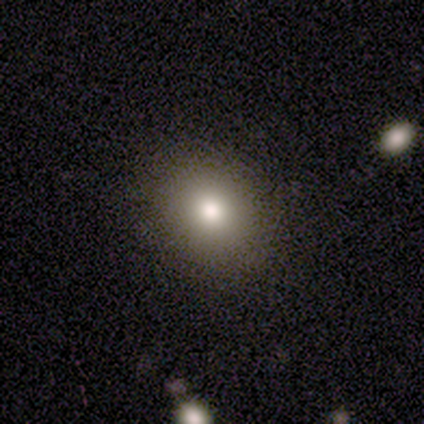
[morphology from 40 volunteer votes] type=smooth (72%); roundness=round (72%); merging=none (91%).